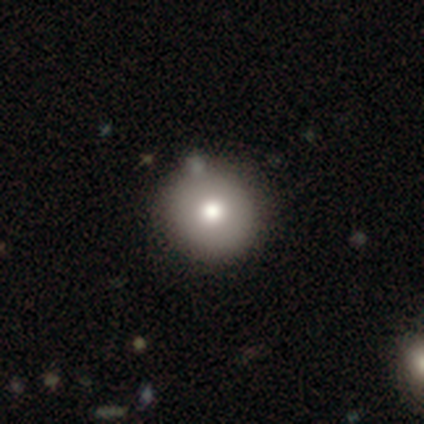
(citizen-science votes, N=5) smooth-or-featured: featured or disk: 60% | smooth: 20% | star or artifact: 20%
  disk-edge-on: no: 100% | yes: 0%
    bar: no: 100% | strong: 0% | weak: 0%
    has-spiral-arms: no: 100% | yes: 0%
    bulge-size: moderate: 67% | large: 33% | dominant: 0% | small: 0% | none: 0%
  merging: none: 100% | minor disturbance: 0% | major disturbance: 0% | merger: 0%